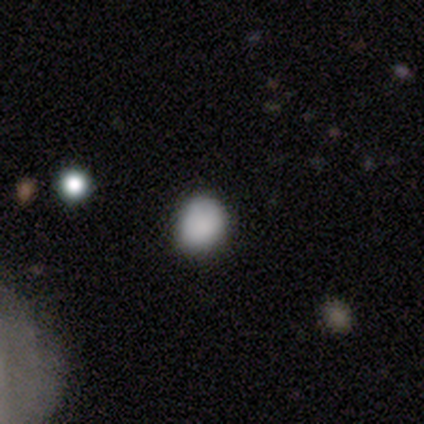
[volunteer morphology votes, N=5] Volunteers were most divided on "how rounded": in between: 60%, round: 40%, cigar-shaped: 0%. More confident: smooth or featured — smooth (100%); merging — none (60%).